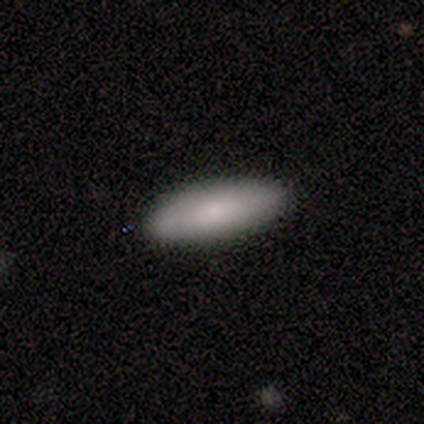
Morphology: type=smooth (90%); roundness=in between (56%); merging=none (90%).